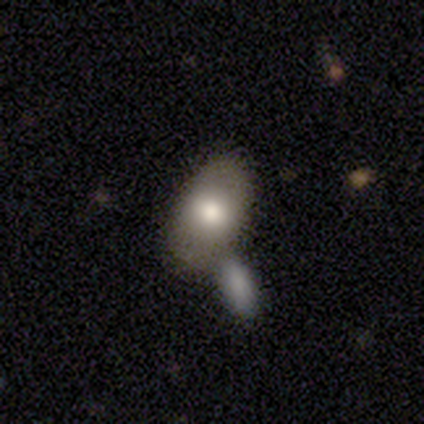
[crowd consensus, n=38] smooth 71%, featured or disk 21%, star or artifact 8%. Down the decision tree: how rounded — in between (93%); merging — merger (63%).